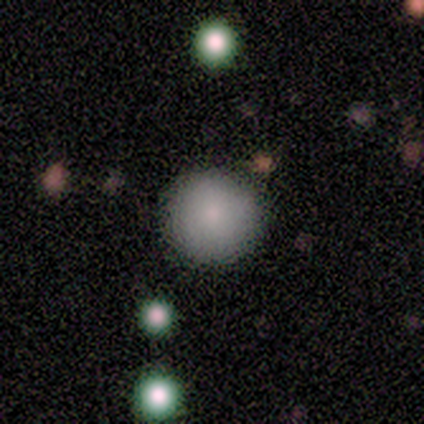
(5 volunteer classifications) A smooth galaxy with no disk features (60%) that is round (100%). Merging: none (100%).